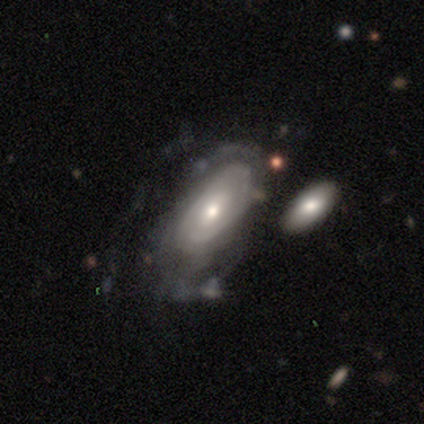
Smooth or featured: featured or disk — 78% (smooth — 17%)
Edge-on disk: no — 95% (yes — 5%)
Bar: no — 59% (weak — 31%)
Spiral arms: yes — 72% (no — 28%)
Spiral winding: tight — 66% (medium — 23%)
Spiral arm count: can't tell — 73% (2 — 16%)
Bulge size: moderate — 57% (small — 30%)
Merging: major disturbance — 44% (none — 32%)